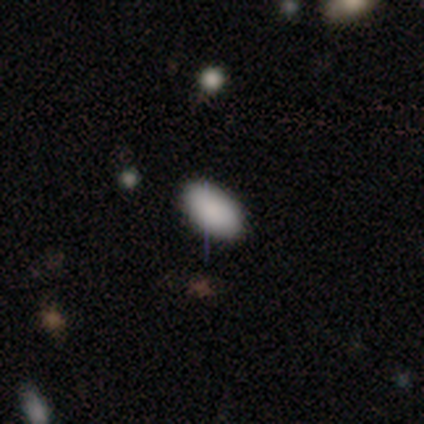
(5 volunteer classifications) smooth 100%, featured or disk 0%, star or artifact 0%. Down the decision tree: how rounded — in between (100%); merging — none (80%).